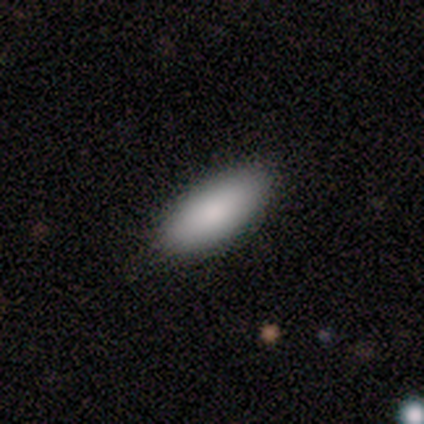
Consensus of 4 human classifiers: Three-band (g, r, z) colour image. It shows a smooth galaxy with no disk features (100%) that is in between round and cigar-shaped (75%). Merging: none (75%).